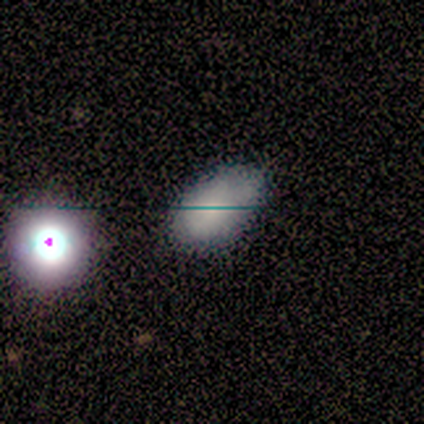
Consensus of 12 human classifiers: Smooth or featured? smooth (42%, tied with star or artifact)
How rounded? in between (100%)
Merging? none (71%)